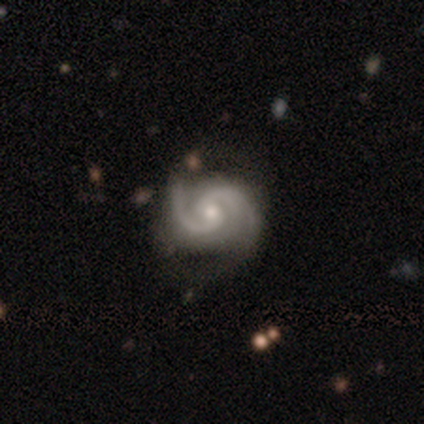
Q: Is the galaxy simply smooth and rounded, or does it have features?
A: featured or disk — 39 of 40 (98%).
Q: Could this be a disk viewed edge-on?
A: no — 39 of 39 (100%).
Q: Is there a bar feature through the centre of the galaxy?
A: no — 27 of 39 (69%).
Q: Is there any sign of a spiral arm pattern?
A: yes — 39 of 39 (100%).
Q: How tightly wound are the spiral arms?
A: tight — 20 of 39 (51%).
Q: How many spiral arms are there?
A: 2 — 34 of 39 (87%).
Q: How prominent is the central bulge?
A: moderate — 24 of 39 (62%).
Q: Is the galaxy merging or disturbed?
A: none — 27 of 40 (68%).